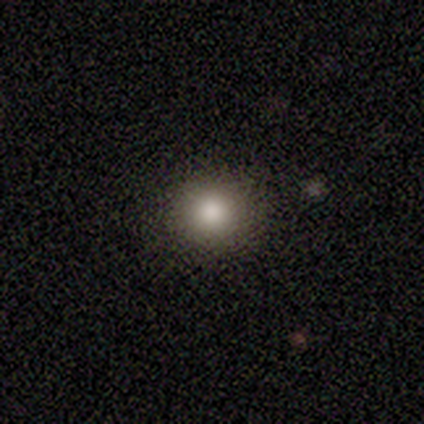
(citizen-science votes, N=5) Smooth or featured: smooth — 80% (star or artifact — 20%)
How rounded: round — 100%
Merging: none — 100%